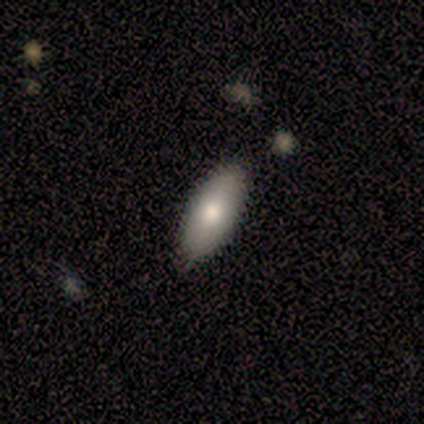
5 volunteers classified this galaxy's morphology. Smooth or featured?
  - smooth: 60% *
  - featured or disk: 40%
  - star or artifact: 0%
How rounded?
  - in between: 100% *
  - round: 0%
  - cigar-shaped: 0%
Merging?
  - none: 100% *
  - minor disturbance: 0%
  - major disturbance: 0%
  - merger: 0%